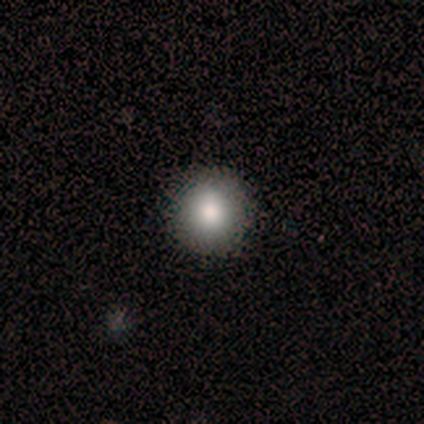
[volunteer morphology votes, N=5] This is clearly a smooth galaxy (80%). How rounded: clearly round (100%). Merging: clearly none (80%).